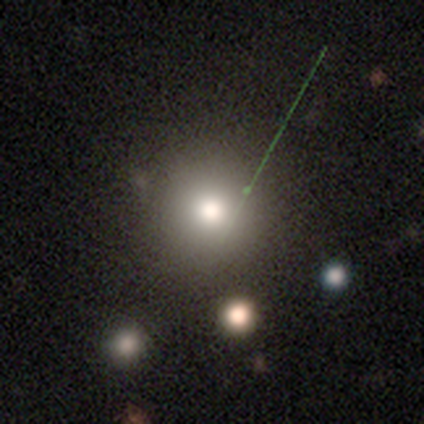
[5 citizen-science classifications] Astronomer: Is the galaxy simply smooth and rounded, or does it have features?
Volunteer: star or artifact — 60%.